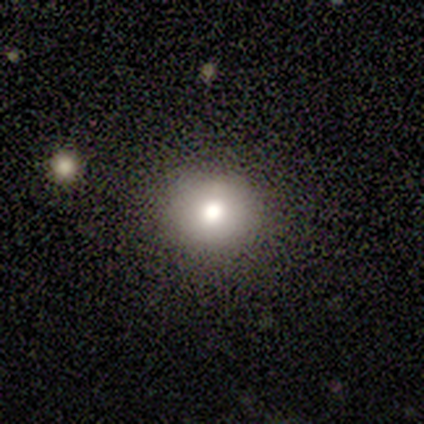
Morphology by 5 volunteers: This appears to be a smooth galaxy with no disk features (60%) that is round (100%). Merging: none (50%, tied with minor disturbance).